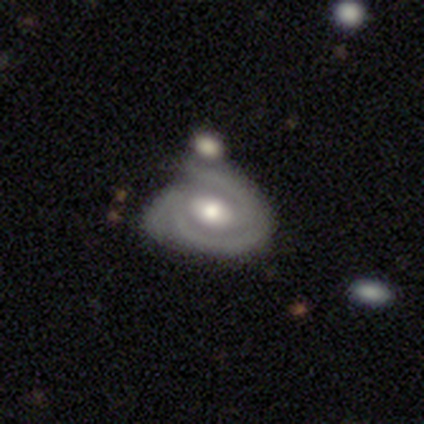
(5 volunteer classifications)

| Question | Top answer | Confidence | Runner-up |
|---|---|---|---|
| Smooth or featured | featured or disk | 80% | smooth (20%) |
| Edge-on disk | no | 100% | — |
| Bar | weak | 50% | tied: no (50%) |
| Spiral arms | yes | 100% | — |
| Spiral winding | tight | 50% | medium (25%) |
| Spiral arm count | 3 | 50% | 1 (25%) |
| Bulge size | moderate | 100% | — |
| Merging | none | 40% | tied: minor disturbance (40%) |